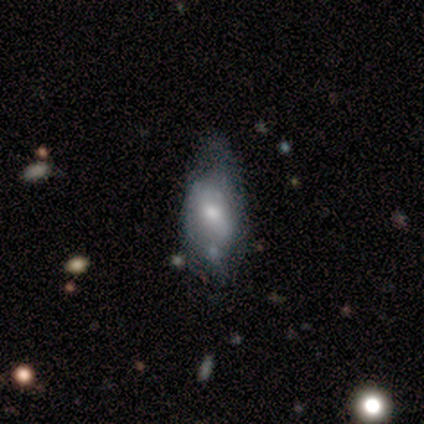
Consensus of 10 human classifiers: Smooth or featured: smooth — 50% (tied with featured or disk — 50%)
How rounded: in between — 80% (round — 20%)
Merging: minor disturbance — 60% (none — 20%)